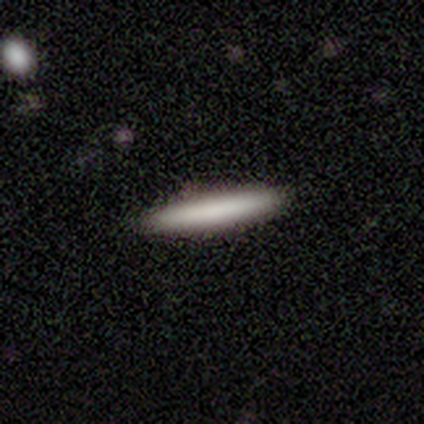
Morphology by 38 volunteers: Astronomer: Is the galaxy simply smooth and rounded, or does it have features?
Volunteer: smooth — 76%.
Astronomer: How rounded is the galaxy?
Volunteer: cigar-shaped — 100%.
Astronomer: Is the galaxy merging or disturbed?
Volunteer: none — 94%.